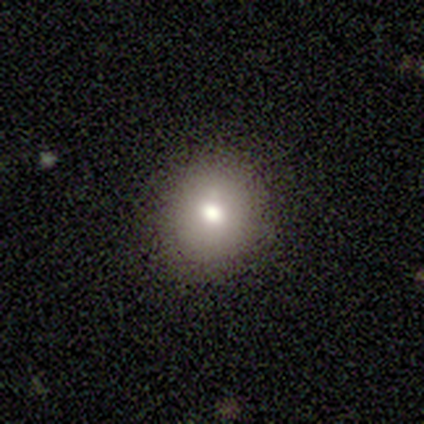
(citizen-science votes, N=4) A smooth galaxy with no disk features (50%, tied with featured or disk) that is round (100%). Merging: none (100%).